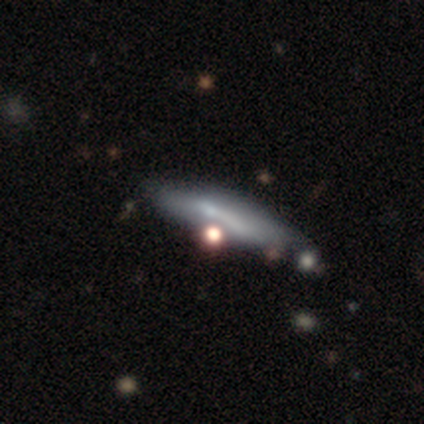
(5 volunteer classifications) A smooth galaxy with no disk features (80%) that is cigar-shaped (100%).

Vote fractions:
- Smooth or featured? smooth: 80% / featured or disk: 20% / star or artifact: 0%
- How rounded? cigar-shaped: 100% / round: 0% / in between: 0%
- Merging? none: 60% / minor disturbance: 20% / merger: 20% / major disturbance: 0%